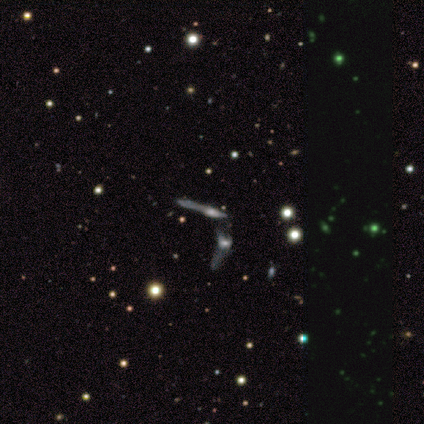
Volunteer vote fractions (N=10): This is clearly a featured or disk galaxy (80%). It is likely viewed edge-on (62%). Edge-on bulge: likely rounded (60%). Merging: likely merger (70%).